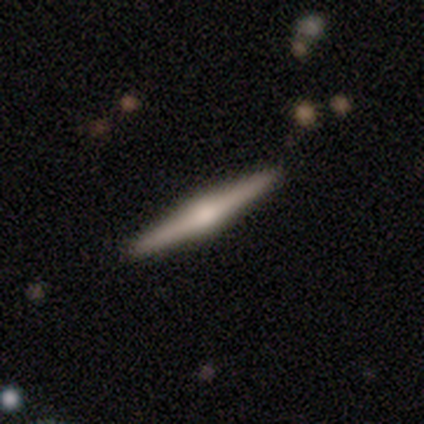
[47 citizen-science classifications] smooth_or_featured: featured or disk (p=0.72) [alt: smooth p=0.21]
disk_edge_on: yes (p=1.00)
edge_on_bulge: rounded (p=0.91) [alt: boxy p=0.09]
merging: none (p=0.95) [alt: minor disturbance p=0.05]